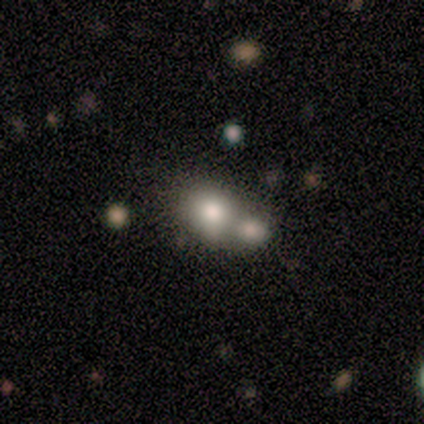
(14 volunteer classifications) This appears to be a smooth galaxy with no disk features (79%) that is round (64%). Merging: merger (75%).